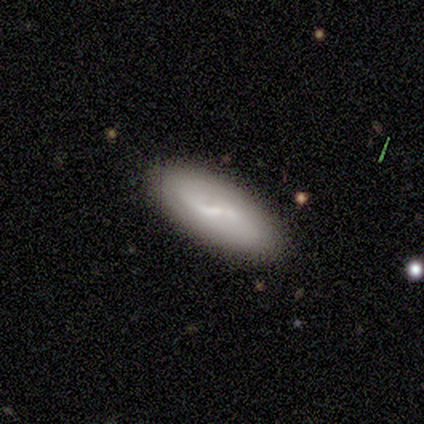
This appears to be a featured or disk galaxy (60%) with a strong bar (50%, tied with weak), tight (33%, tied with medium and loose) spiral arms (50%, tied with no) and no central bulge (83%). Merging: none (90%).